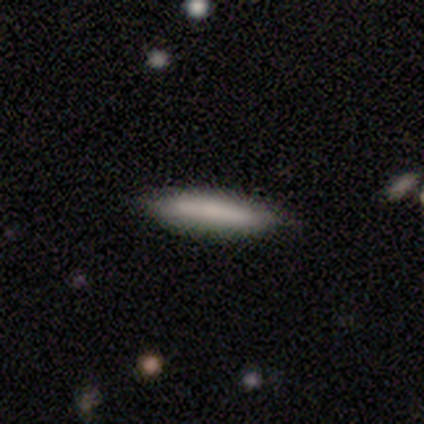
Morphology: type=smooth (67%); roundness=cigar-shaped (100%); merging=none (100%).